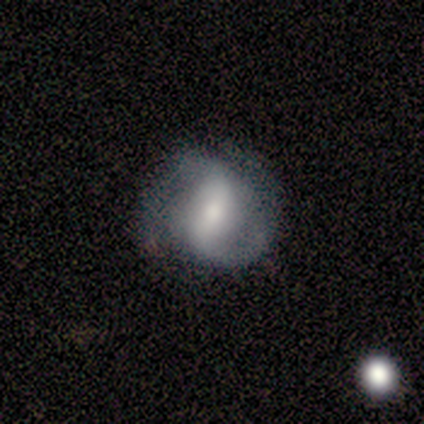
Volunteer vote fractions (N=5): A featured or disk galaxy (100%) with a strong bar (60%), 2 (75%) tight (50%, tied with medium) spiral arms (80%) and a small central bulge (40%). Merging: none (60%).